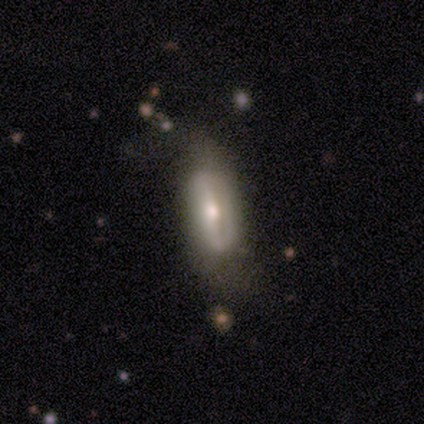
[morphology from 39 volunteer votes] featured or disk 54%, smooth 38%, star or artifact 8%. Down the decision tree: edge-on disk — no (71%); bar — strong (33%, tied with weak and no); spiral arms — no (53%); bulge size — moderate (60%); merging — none (47%).